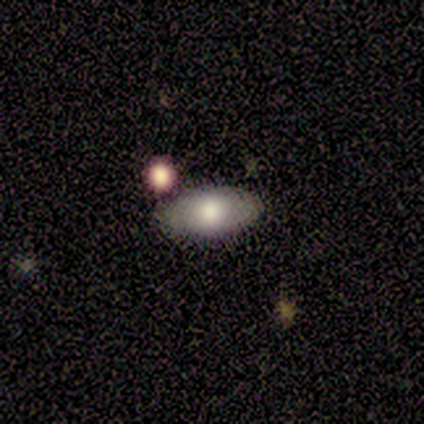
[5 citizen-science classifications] Smooth or featured?
  - smooth: 80% *
  - featured or disk: 20%
  - star or artifact: 0%
How rounded?
  - in between: 100% *
  - round: 0%
  - cigar-shaped: 0%
Merging?
  - none: 80% *
  - merger: 20%
  - minor disturbance: 0%
  - major disturbance: 0%